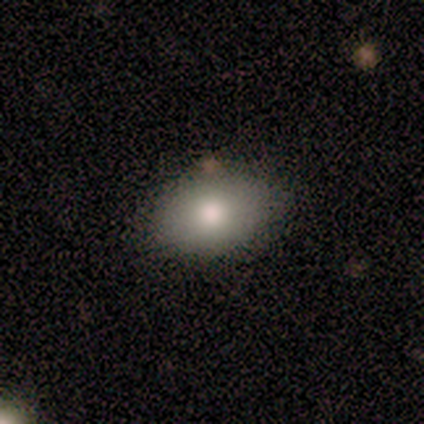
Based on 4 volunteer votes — Smooth or featured? smooth (75%)
How rounded? in between (100%)
Merging? none (67%)